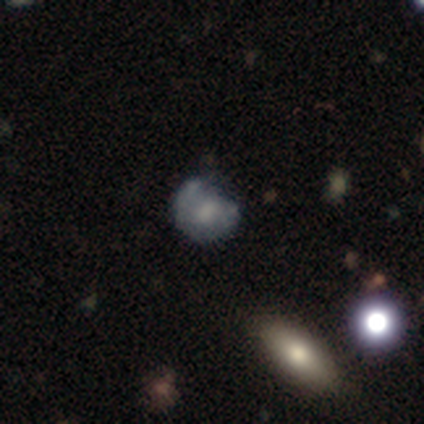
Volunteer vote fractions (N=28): This is marginally a smooth galaxy (39%, tied with featured or disk). How rounded: clearly round (82%). Merging: likely none (64%).